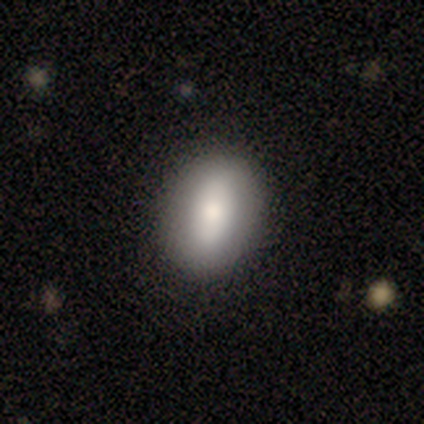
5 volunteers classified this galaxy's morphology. type=smooth (60%); roundness=in between (67%); merging=none (75%).